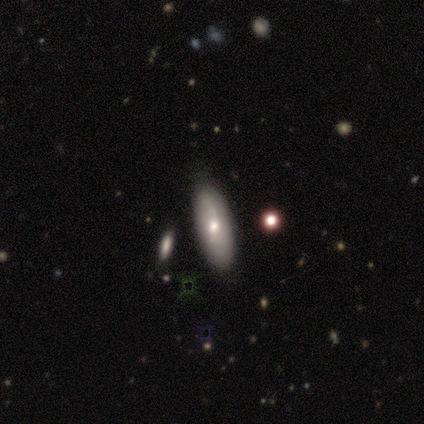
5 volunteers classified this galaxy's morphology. This appears to be a featured or disk galaxy (60%) with no bar (67%), 2 (100%) loose (100%) spiral arms (67%) and a moderate central bulge (67%). Merging: none (100%).